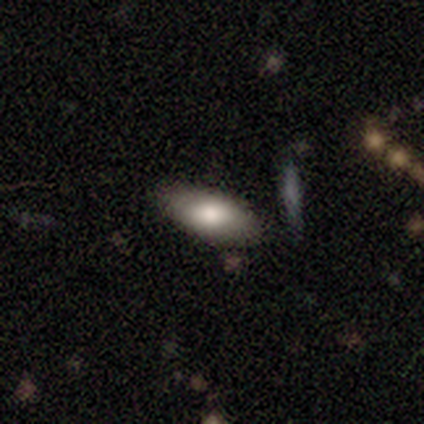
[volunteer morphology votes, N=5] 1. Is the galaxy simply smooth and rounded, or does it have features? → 60% smooth, 40% featured or disk, 0% star or artifact.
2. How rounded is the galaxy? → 100% in between, 0% round, 0% cigar-shaped.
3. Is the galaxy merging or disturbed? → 100% none, 0% minor disturbance, 0% major disturbance, 0% merger.